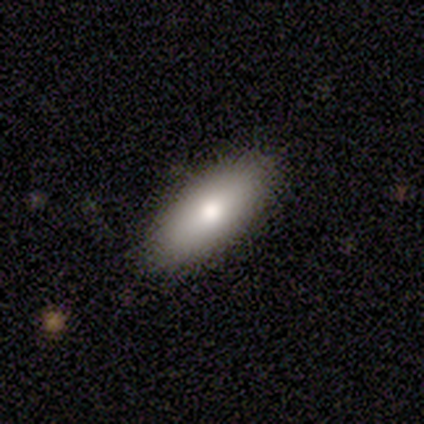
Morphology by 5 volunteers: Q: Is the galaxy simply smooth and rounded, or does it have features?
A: smooth — 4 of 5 (80%).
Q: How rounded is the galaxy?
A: in between — 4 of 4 (100%).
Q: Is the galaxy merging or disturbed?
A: none — 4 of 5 (80%).